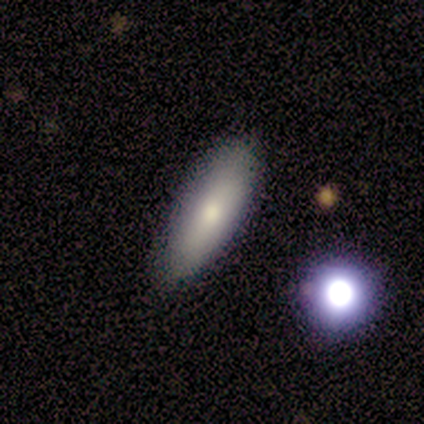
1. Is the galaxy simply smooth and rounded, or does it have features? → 89% smooth, 11% featured or disk, 0% star or artifact.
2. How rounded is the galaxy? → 50% in between (tied), 50% cigar-shaped (tied), 0% round.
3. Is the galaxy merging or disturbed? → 89% none, 11% minor disturbance, 0% major disturbance, 0% merger.